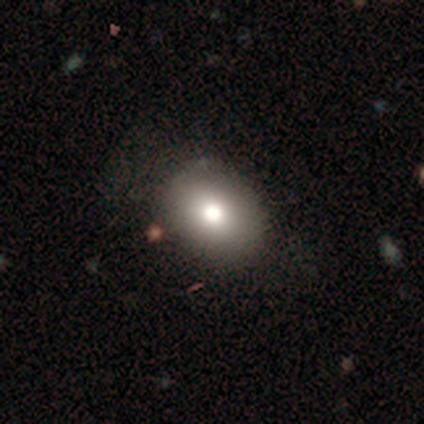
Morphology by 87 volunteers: Smooth or featured? smooth (80%)
How rounded? in between (73%)
Merging? none (78%)